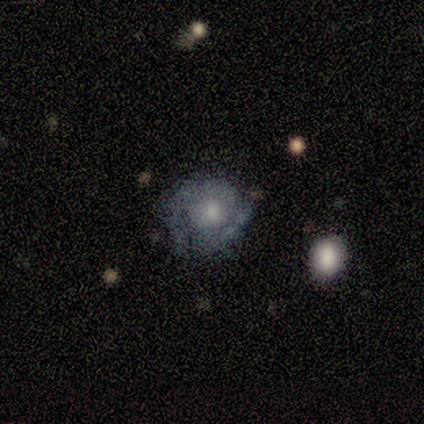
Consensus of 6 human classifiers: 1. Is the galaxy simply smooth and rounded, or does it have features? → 67% featured or disk, 33% smooth, 0% star or artifact.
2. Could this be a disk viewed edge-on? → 100% no, 0% yes.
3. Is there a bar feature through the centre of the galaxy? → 75% no, 25% weak, 0% strong.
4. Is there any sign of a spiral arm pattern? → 50% yes (tied), 50% no (tied).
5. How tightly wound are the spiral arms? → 100% tight, 0% medium, 0% loose.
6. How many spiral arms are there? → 50% 2 (tied), 50% can't tell (tied), 0% 1, 0% 3, 0% 4, 0% more than 4.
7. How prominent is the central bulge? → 100% moderate, 0% dominant, 0% large, 0% small, 0% none.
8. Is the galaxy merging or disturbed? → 67% none, 33% minor disturbance, 0% major disturbance, 0% merger.